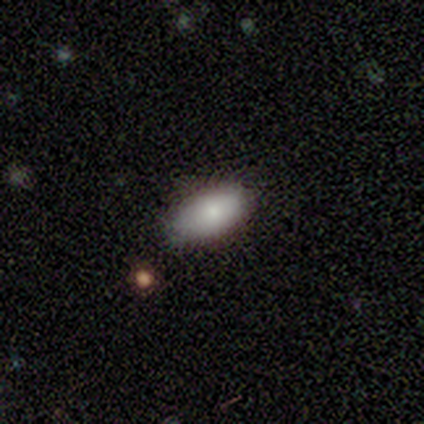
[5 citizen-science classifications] smooth 100%, featured or disk 0%, star or artifact 0%. Down the decision tree: how rounded — in between (100%); merging — none (80%).